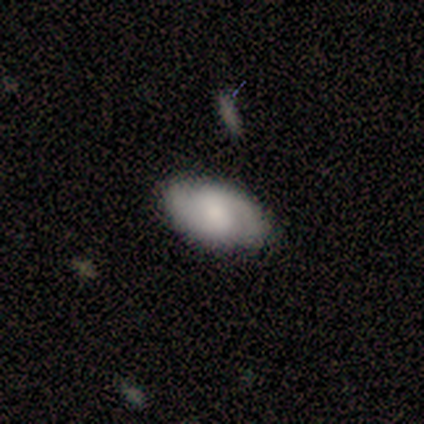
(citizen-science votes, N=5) Smooth or featured: featured or disk — 80% (smooth — 20%)
Edge-on disk: no — 100%
Bar: weak — 50% (tied with no — 50%)
Spiral arms: yes — 100%
Spiral winding: tight — 50% (tied with medium — 50%)
Spiral arm count: 2 — 100%
Bulge size: small — 50% (dominant — 25%)
Merging: none — 100%